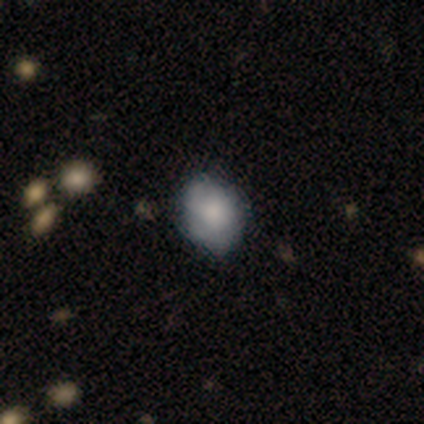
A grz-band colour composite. It shows a smooth galaxy with no disk features (79%) that is in between round and cigar-shaped (52%). Merging: none (59%).